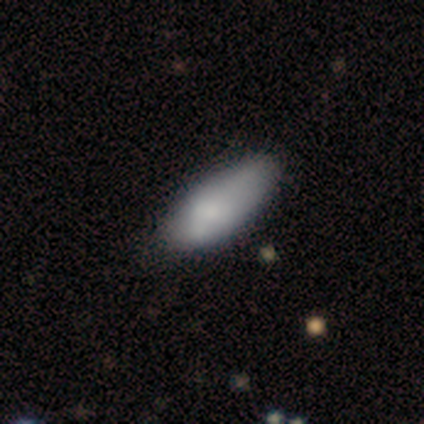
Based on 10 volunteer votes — Smooth or featured?
  - smooth: 80% *
  - featured or disk: 10%
  - star or artifact: 10%
How rounded?
  - in between: 100% *
  - round: 0%
  - cigar-shaped: 0%
Merging?
  - none: 67% *
  - minor disturbance: 33%
  - major disturbance: 0%
  - merger: 0%